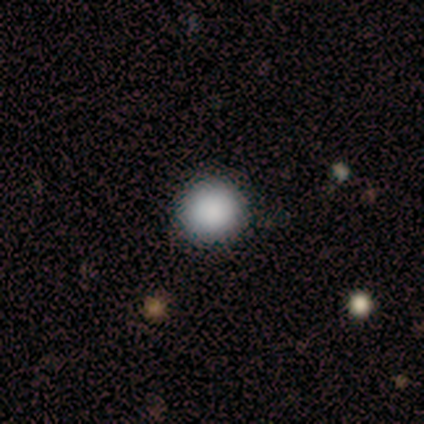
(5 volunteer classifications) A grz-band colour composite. It shows a smooth galaxy with no disk features (100%) that is round (100%). Merging: none (100%).